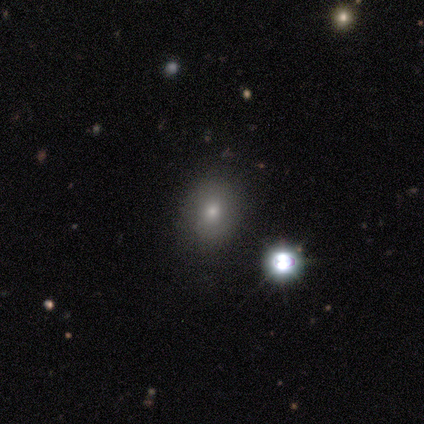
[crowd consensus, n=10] Volunteers were most divided on "how rounded": round: 57%, in between: 43%, cigar-shaped: 0%. More confident: smooth or featured — smooth (70%); merging — none (62%).